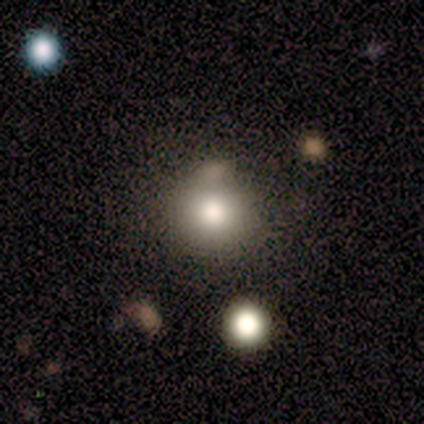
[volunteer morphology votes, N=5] smooth 60%, featured or disk 40%, star or artifact 0%. Down the decision tree: how rounded — round (100%); merging — minor disturbance (60%).